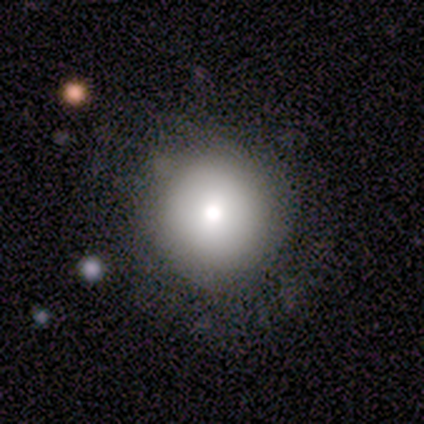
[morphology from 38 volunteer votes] Smooth or featured: smooth — 71% (featured or disk — 18%)
How rounded: round — 96% (cigar-shaped — 4%)
Merging: none — 88% (minor disturbance — 12%)